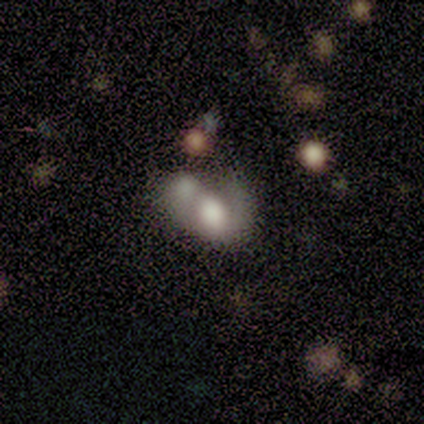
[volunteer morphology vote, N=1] featured or disk 100%, smooth 0%, star or artifact 0%. Down the decision tree: edge-on disk — no (100%); bar — no (100%); spiral arms — yes (100%); spiral arm count — 1 (100%); spiral winding — tight (100%); bulge size — large (100%); merging — merger (100%).